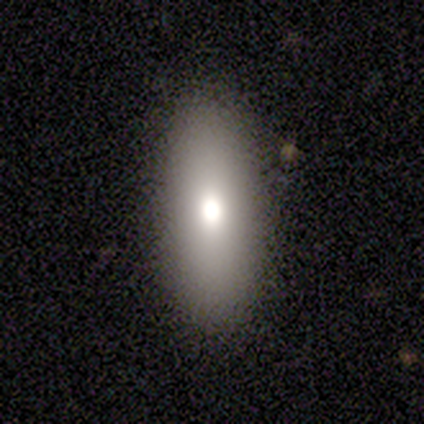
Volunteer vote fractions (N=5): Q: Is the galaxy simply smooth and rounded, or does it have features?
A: smooth — 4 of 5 (80%).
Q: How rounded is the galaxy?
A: in between — 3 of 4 (75%).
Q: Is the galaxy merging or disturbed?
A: none — 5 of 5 (100%).